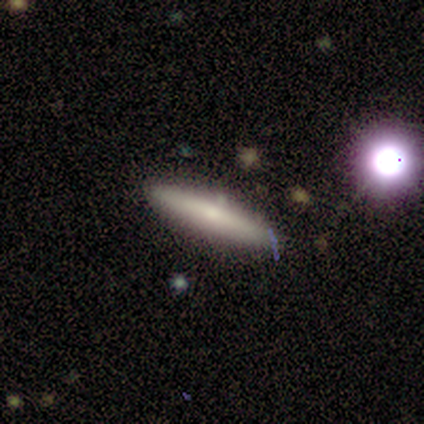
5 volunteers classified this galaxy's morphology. Overall: smooth (60%; featured or disk 20%). How rounded: cigar-shaped (100%). Merging: none (75%).